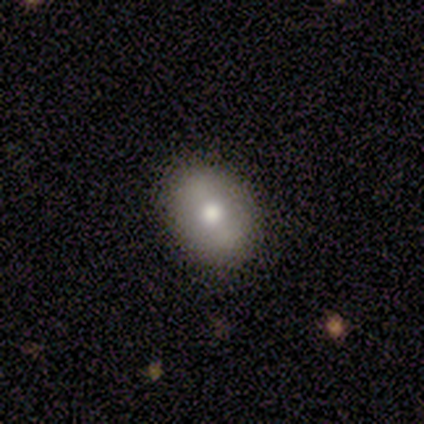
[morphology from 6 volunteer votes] A smooth galaxy with no disk features (50%, tied with featured or disk) that is in between round and cigar-shaped (67%). Merging: none (83%).